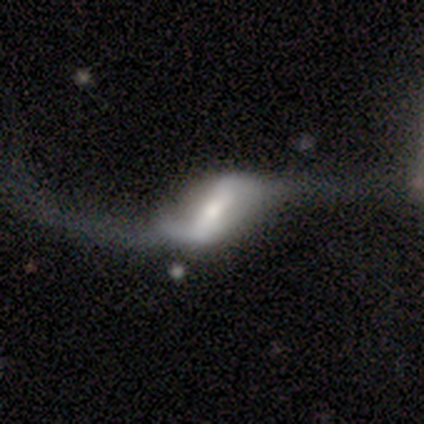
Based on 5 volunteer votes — This is clearly a featured or disk galaxy (100%). It is clearly not viewed edge-on (100%). Bar: clearly strong (80%). Spiral arm pattern: clearly yes (100%). Spiral arm count: clearly 2 (100%). Spiral winding: clearly loose (100%). Central bulge: likely moderate (60%). Merging: marginally major disturbance (40%).